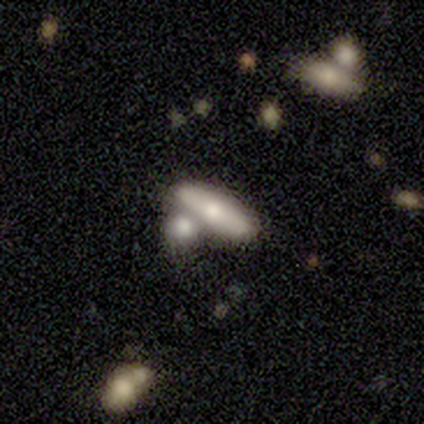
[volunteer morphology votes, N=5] type=smooth (60%); roundness=in between (67%); merging=none (60%).